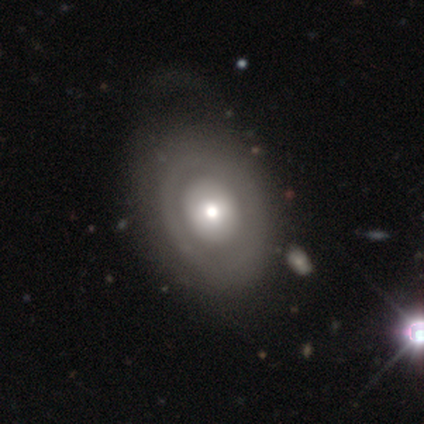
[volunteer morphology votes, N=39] Overall: featured or disk (56%; smooth 38%). Edge-on disk: no (91%). Bar: no (85%). Spiral arms: no (80%). Bulge size: moderate (75%). Merging: none (51%).